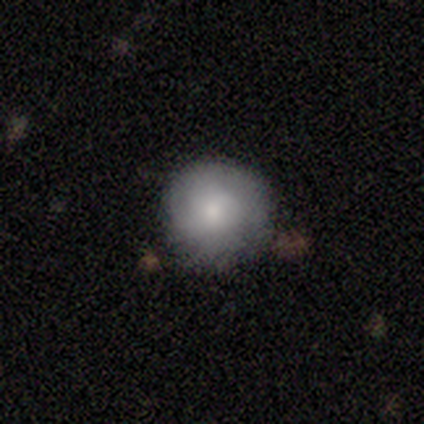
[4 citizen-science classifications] smooth-or-featured: smooth: 100% | featured or disk: 0% | star or artifact: 0%
  how-rounded: round: 100% | in between: 0% | cigar-shaped: 0%
  merging: none: 100% | minor disturbance: 0% | major disturbance: 0% | merger: 0%